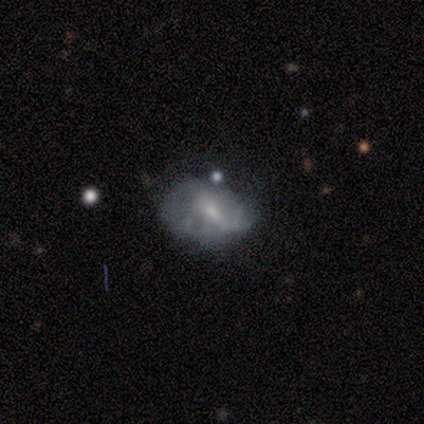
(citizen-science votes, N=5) Smooth or featured?
  - smooth: 60% *
  - featured or disk: 40%
  - star or artifact: 0%
How rounded?
  - in between: 67% *
  - round: 33%
  - cigar-shaped: 0%
Merging?
  - none: 60% *
  - minor disturbance: 40%
  - major disturbance: 0%
  - merger: 0%